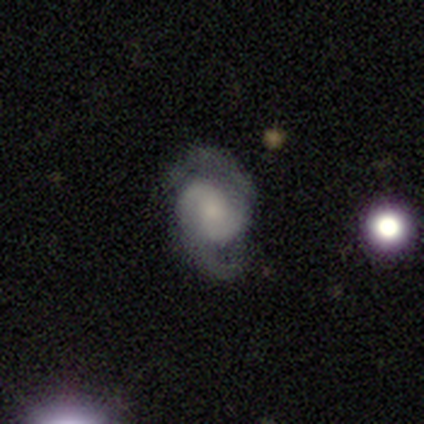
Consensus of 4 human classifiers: Smooth or featured?
  - featured or disk: 100% *
  - smooth: 0%
  - star or artifact: 0%
Edge-on disk?
  - no: 100% *
  - yes: 0%
Bar?
  - no: 100% *
  - strong: 0%
  - weak: 0%
Spiral arms?
  - yes: 100% *
  - no: 0%
Spiral winding?
  - medium: 50% *
  - tight: 25%
  - loose: 25%
Spiral arm count?
  - 2: 75% *
  - 3: 25%
  - 1: 0%
  - 4: 0%
  - more than 4: 0%
  - can't tell: 0%
Bulge size?
  - small: 50% *
  - large: 25%
  - none: 25%
  - dominant: 0%
  - moderate: 0%
Merging?
  - none: 50% * (tied)
  - minor disturbance: 50% * (tied)
  - major disturbance: 0%
  - merger: 0%